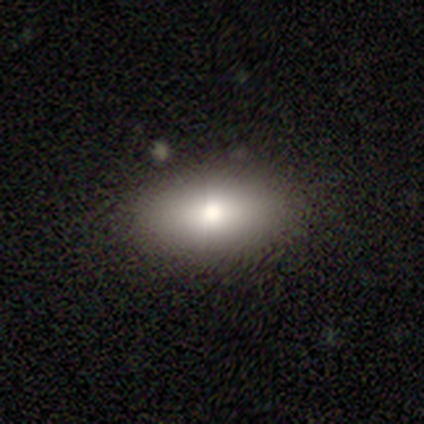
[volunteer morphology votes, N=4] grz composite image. It shows a smooth galaxy with no disk features (100%) that is in between round and cigar-shaped (75%). Merging: none (75%).